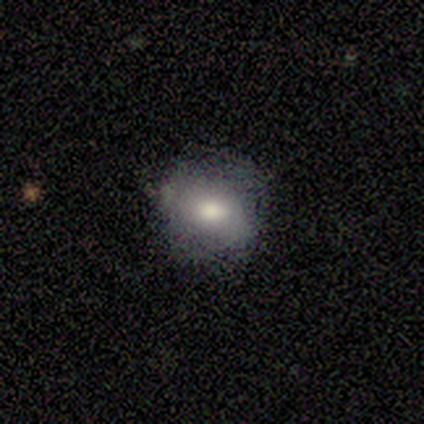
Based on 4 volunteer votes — This appears to be a smooth galaxy with no disk features (100%) that is round (75%). Merging: none (100%).